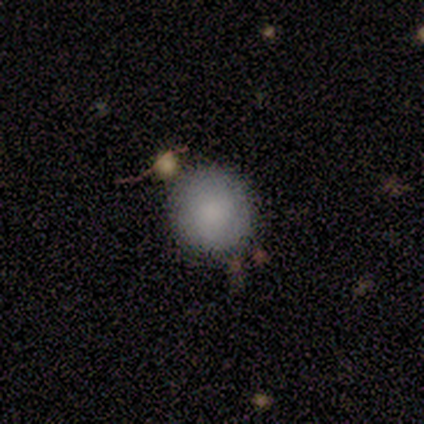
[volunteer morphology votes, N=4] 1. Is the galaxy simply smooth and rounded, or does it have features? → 75% smooth, 25% star or artifact, 0% featured or disk.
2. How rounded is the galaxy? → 67% round, 33% in between, 0% cigar-shaped.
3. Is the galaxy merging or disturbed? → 67% none, 33% merger, 0% minor disturbance, 0% major disturbance.